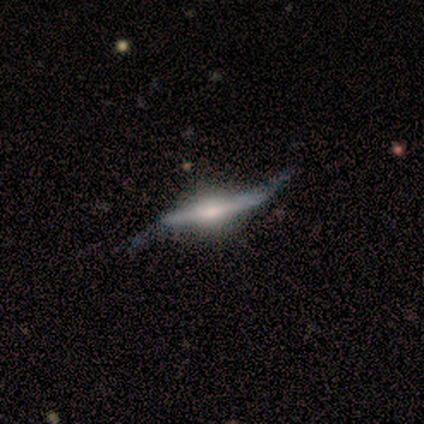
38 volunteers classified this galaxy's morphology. Q: Smooth or featured?
A: featured or disk (92%); runner-up: smooth (8%)
Q: Edge-on disk?
A: yes (77%); runner-up: no (23%)
Q: Edge-on bulge?
A: rounded (78%); runner-up: boxy (15%)
Q: Merging?
A: none (34%); runner-up: minor disturbance (26%)